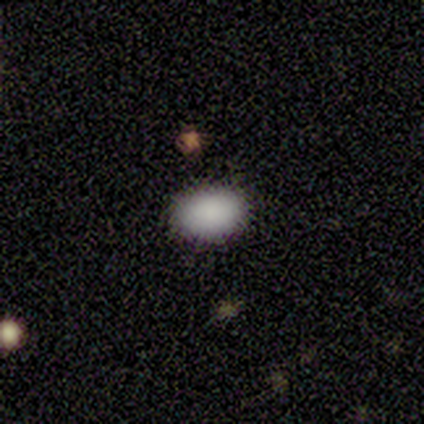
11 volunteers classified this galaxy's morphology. smooth-or-featured: smooth: 91% | star or artifact: 9% | featured or disk: 0%
  how-rounded: in between: 90% | cigar-shaped: 10% | round: 0%
  merging: none: 100% | minor disturbance: 0% | major disturbance: 0% | merger: 0%